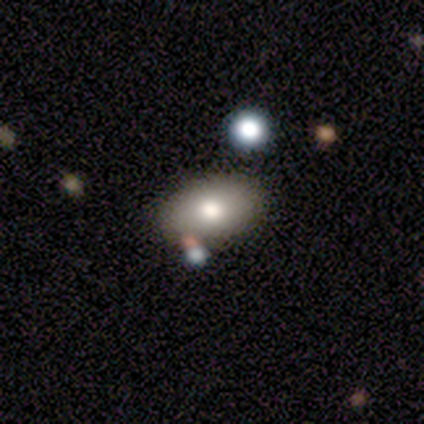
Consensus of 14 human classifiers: smooth-or-featured: smooth: 64% | featured or disk: 21% | star or artifact: 14%
  how-rounded: in between: 100% | round: 0% | cigar-shaped: 0%
  merging: none: 100% | minor disturbance: 0% | major disturbance: 0% | merger: 0%